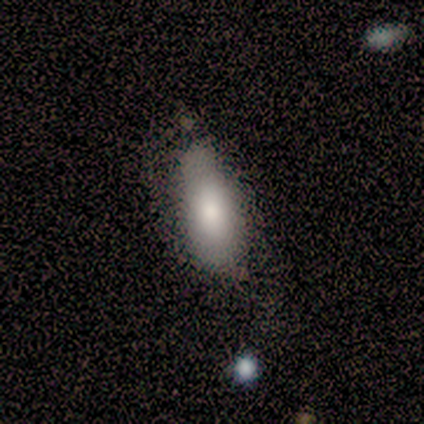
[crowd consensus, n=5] Smooth or featured? 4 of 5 (80%) said smooth. How rounded? 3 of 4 (75%) said in between. Merging? 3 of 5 (60%) said none.